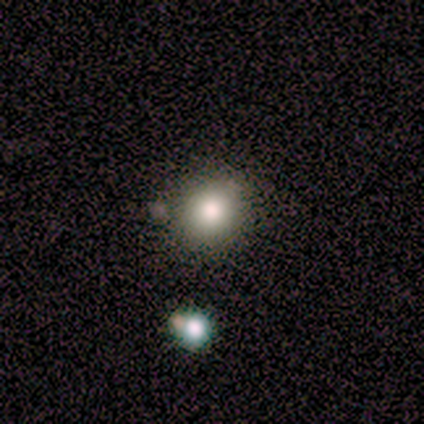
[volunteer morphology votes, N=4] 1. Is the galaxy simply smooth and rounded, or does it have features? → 100% smooth, 0% featured or disk, 0% star or artifact.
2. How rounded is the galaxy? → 100% round, 0% in between, 0% cigar-shaped.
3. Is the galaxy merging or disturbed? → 100% none, 0% minor disturbance, 0% major disturbance, 0% merger.